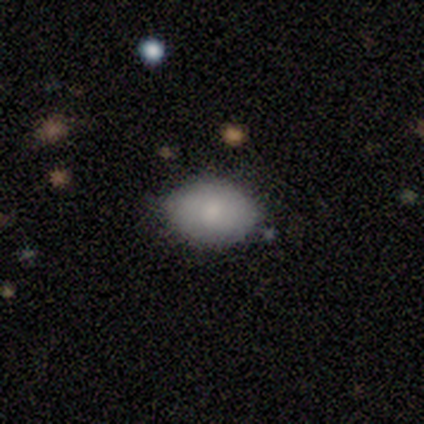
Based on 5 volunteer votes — This is clearly a smooth galaxy (80%). How rounded: clearly in between (100%). Merging: clearly none (80%).